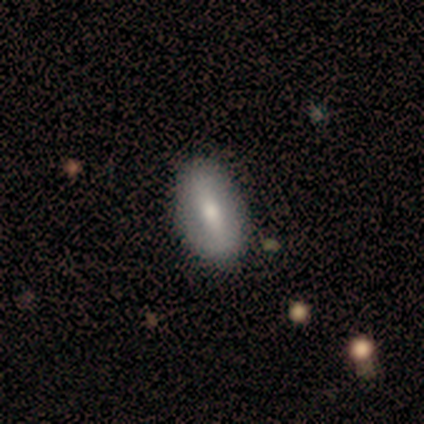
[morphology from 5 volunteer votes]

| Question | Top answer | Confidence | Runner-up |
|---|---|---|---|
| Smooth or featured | smooth | 80% | featured or disk (20%) |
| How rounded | in between | 100% | — |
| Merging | none | 60% | major disturbance (40%) |